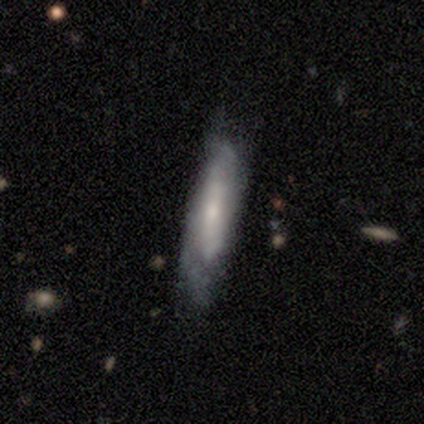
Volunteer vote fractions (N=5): Smooth or featured? 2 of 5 (40%, tied with featured or disk) said smooth. How rounded? 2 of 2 (100%) said cigar-shaped. Merging? 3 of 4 (75%) said none.